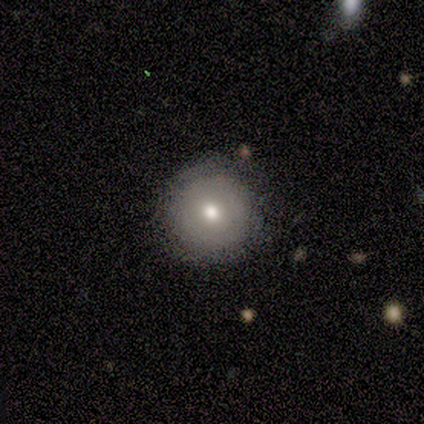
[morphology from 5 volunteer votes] Smooth or featured? smooth (80%)
How rounded? round (100%)
Merging? none (100%)